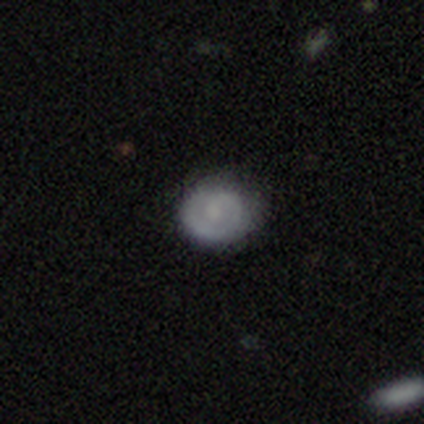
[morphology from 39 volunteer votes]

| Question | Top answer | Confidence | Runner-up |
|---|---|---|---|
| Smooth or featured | smooth | 49% | featured or disk (41%) |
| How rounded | round | 74% | in between (26%) |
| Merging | none | 77% | minor disturbance (20%) |